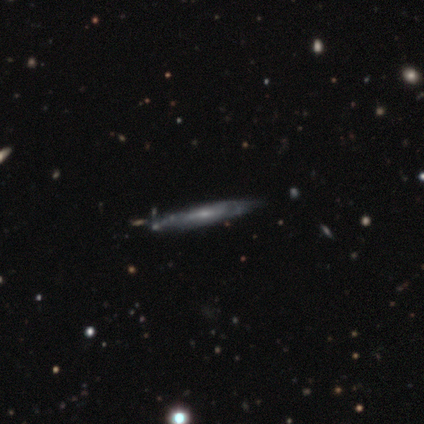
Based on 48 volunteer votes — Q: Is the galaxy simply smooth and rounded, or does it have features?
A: featured or disk — 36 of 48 (75%).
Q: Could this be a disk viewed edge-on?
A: no — 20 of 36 (56%).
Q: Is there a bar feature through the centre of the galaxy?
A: no — 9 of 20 (45%).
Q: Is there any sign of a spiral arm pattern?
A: yes — 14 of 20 (70%).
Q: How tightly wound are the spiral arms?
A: tight — 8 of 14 (57%).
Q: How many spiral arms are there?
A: can't tell — 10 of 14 (71%).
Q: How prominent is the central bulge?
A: small — 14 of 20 (70%).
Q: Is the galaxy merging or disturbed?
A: none — 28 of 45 (62%).